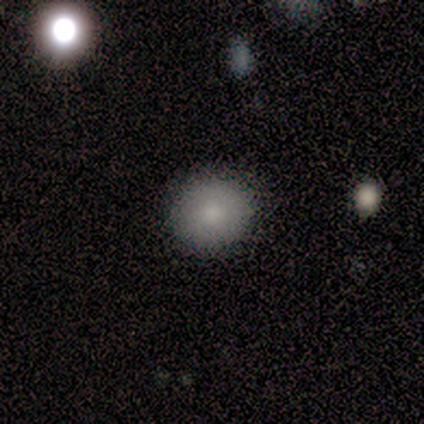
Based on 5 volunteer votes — smooth 100%, featured or disk 0%, star or artifact 0%. Down the decision tree: how rounded — round (100%); merging — none (100%).